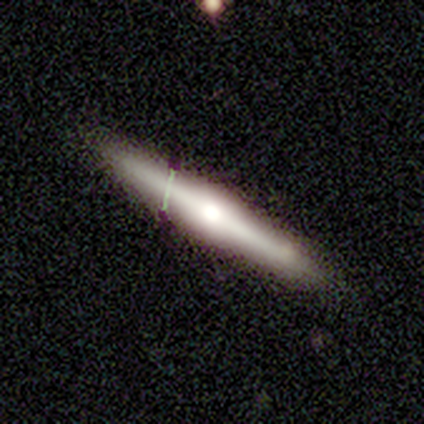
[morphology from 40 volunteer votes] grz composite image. It shows a featured or disk galaxy (72%) viewed edge-on (97%) with a rounded central bulge (86%). Merging: none (87%).